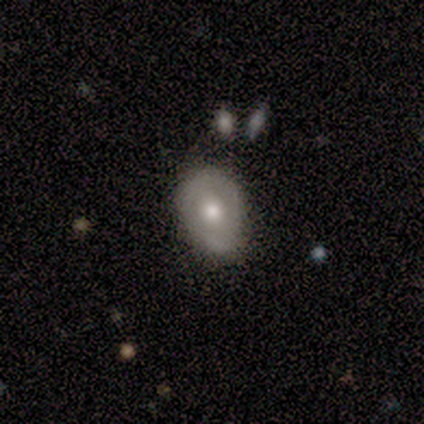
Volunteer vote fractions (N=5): Smooth or featured? smooth (40%, tied with featured or disk)
How rounded? round (50%, tied with in between)
Merging? none (100%)